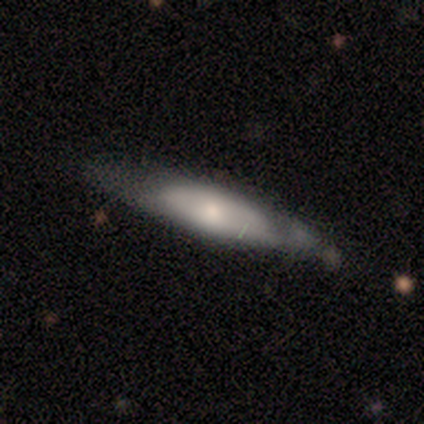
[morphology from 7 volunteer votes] Volunteers were most divided on "merging" (2-way tie): none: 43%, minor disturbance: 43%, major disturbance: 14%, merger: 0%. More confident: edge-on bulge — rounded (100%); edge-on disk — yes (75%); smooth or featured — featured or disk (57%).